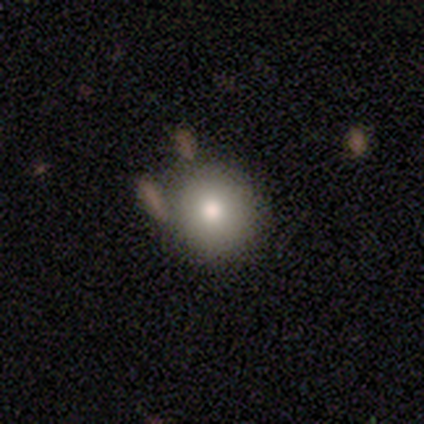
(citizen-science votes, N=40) Smooth or featured? smooth (88%)
How rounded? round (94%)
Merging? none (78%)